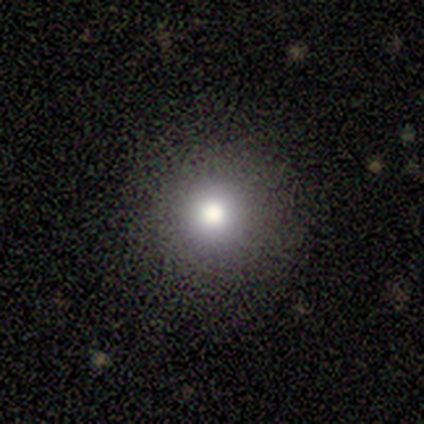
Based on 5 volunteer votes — Volunteers were most divided on "how rounded": round: 75%, in between: 25%, cigar-shaped: 0%. More confident: smooth or featured — smooth (80%); merging — none (75%).